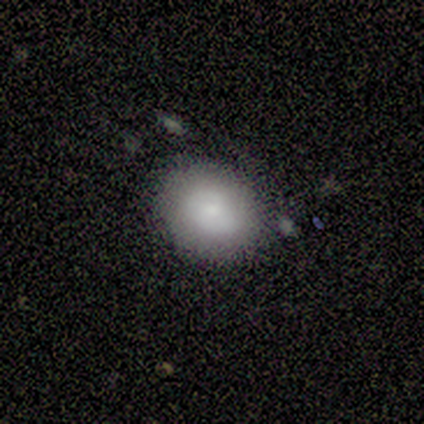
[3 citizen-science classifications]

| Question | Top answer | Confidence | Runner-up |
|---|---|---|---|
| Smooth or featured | smooth | 100% | — |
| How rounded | round | 100% | — |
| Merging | none | 100% | — |